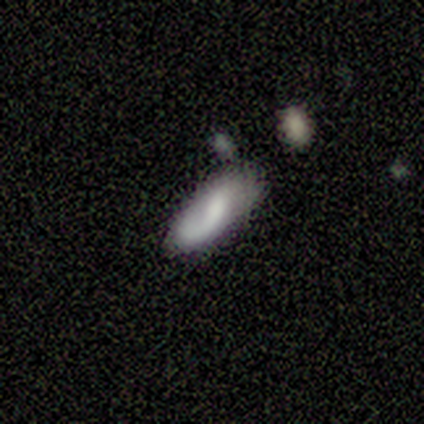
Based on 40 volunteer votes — Overall: featured or disk (62%; smooth 32%). Edge-on disk: no (84%). Bar: no (48%; weak 38%). Spiral arms: yes (81%). Spiral arm count: 1 (76%). Spiral winding: medium (41%, tied with loose). Bulge size: moderate (38%, tied with none). Merging: none (39%; minor disturbance 37%).